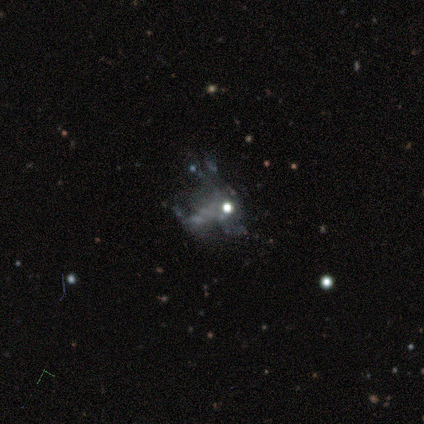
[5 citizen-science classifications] A featured or disk galaxy (80%) with no bar (100%), no spiral arms (100%) and no central bulge (50%).

Vote fractions:
- Smooth or featured? featured or disk: 80% / star or artifact: 20% / smooth: 0%
- Edge-on disk? no: 100% / yes: 0%
- Bar? no: 100% / strong: 0% / weak: 0%
- Spiral arms? no: 100% / yes: 0%
- Bulge size? none: 50% / moderate: 25% / small: 25% / dominant: 0% / large: 0%
- Merging? none: 50% (tied) / major disturbance: 50% (tied) / minor disturbance: 0% / merger: 0%